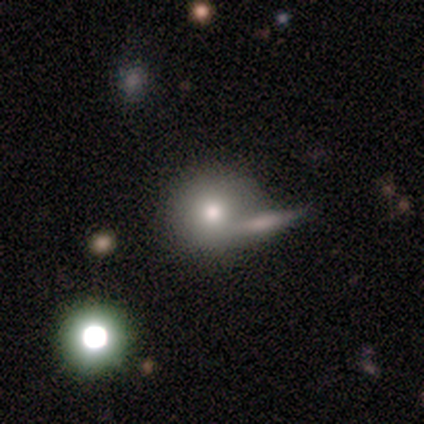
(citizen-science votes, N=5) Overall: smooth (80%). How rounded: round (100%). Merging: none (40%, tied with merger).